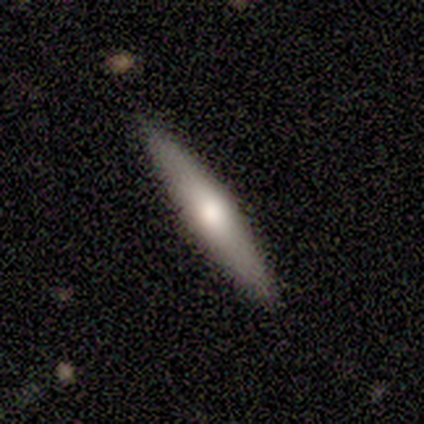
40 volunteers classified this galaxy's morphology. Smooth or featured: smooth — 57% (featured or disk — 40%)
How rounded: cigar-shaped — 96% (in between — 4%)
Merging: none — 95% (minor disturbance — 3%)